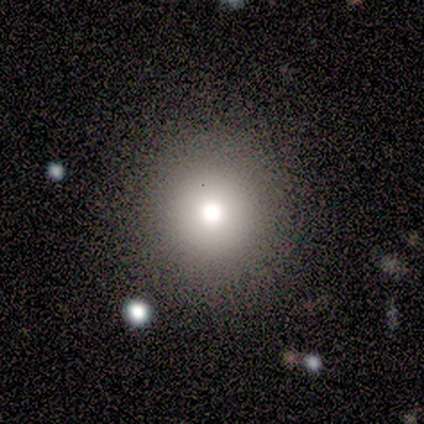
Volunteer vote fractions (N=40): Smooth or featured: smooth — 80% (star or artifact — 12%)
How rounded: round — 100%
Merging: none — 83% (minor disturbance — 11%)